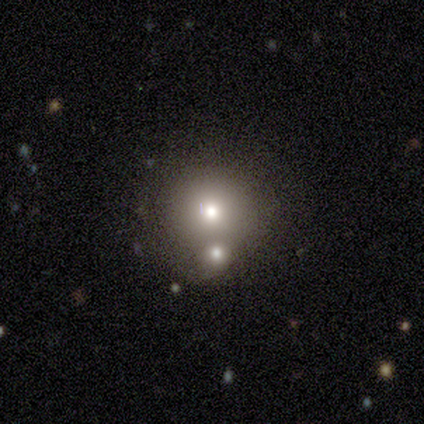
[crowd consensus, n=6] Smooth or featured?
  - smooth: 67% *
  - featured or disk: 33%
  - star or artifact: 0%
How rounded?
  - round: 100% *
  - in between: 0%
  - cigar-shaped: 0%
Merging?
  - none: 50% *
  - merger: 33%
  - minor disturbance: 17%
  - major disturbance: 0%